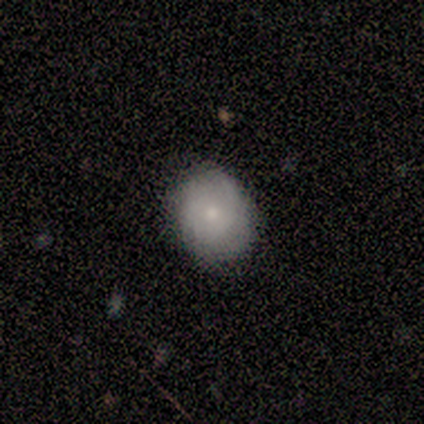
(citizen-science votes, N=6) Morphology: type=smooth (67%); roundness=round (75%); merging=none (100%).